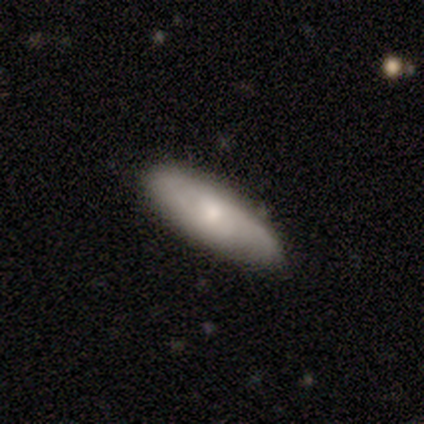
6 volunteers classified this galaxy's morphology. Overall: featured or disk (67%; smooth 33%). Edge-on disk: no (75%). Bar: no (100%). Spiral arms: yes (100%). Spiral arm count: can't tell (67%; 2 33%). Spiral winding: medium (67%; tight 33%). Bulge size: small (100%). Merging: none (83%).